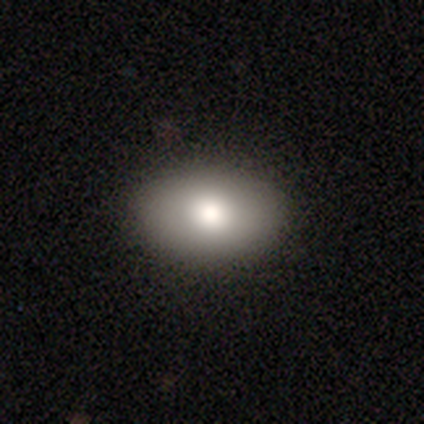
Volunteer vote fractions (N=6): smooth_or_featured: smooth (p=0.83) [alt: featured or disk p=0.17]
how_rounded: in between (p=1.00)
merging: none (p=0.83) [alt: minor disturbance p=0.17]